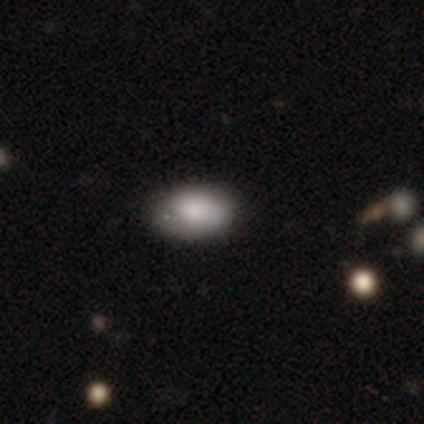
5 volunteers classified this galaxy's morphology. Overall: smooth (80%). How rounded: in between (75%). Merging: none (60%; minor disturbance 40%).